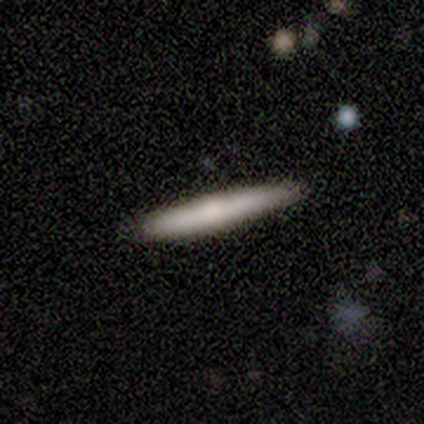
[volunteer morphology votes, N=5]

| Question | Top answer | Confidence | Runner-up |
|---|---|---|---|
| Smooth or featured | smooth | 80% | featured or disk (20%) |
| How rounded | cigar-shaped | 100% | — |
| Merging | none | 60% | minor disturbance (40%) |